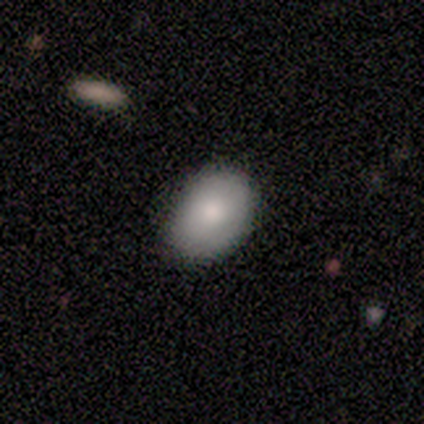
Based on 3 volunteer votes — Smooth or featured: smooth — 67% (featured or disk — 33%)
How rounded: in between — 100%
Merging: none — 100%